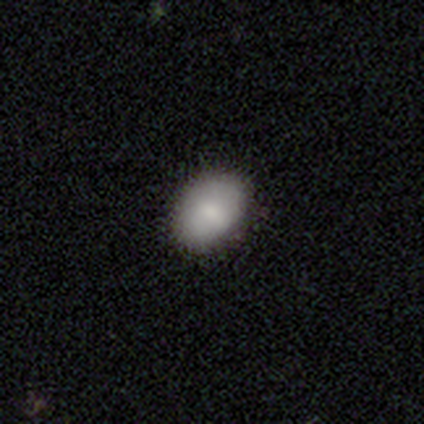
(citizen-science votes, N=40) Smooth or featured? 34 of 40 (85%) said smooth. How rounded? 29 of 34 (85%) said in between. Merging? 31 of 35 (89%) said none.